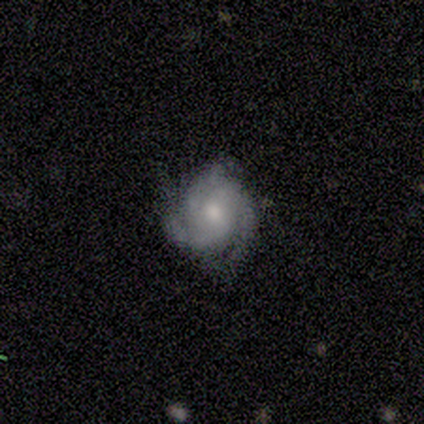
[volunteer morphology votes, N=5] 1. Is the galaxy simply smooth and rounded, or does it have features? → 80% featured or disk, 20% smooth, 0% star or artifact.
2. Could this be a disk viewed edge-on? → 100% no, 0% yes.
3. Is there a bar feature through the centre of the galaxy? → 75% no, 25% weak, 0% strong.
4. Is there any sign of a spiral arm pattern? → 100% yes, 0% no.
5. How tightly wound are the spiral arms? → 50% tight (tied), 50% medium (tied), 0% loose.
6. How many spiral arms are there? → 75% 3, 25% can't tell, 0% 1, 0% 2, 0% 4, 0% more than 4.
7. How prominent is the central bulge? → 50% small, 25% large, 25% moderate, 0% dominant, 0% none.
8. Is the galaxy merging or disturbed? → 80% none, 20% minor disturbance, 0% major disturbance, 0% merger.